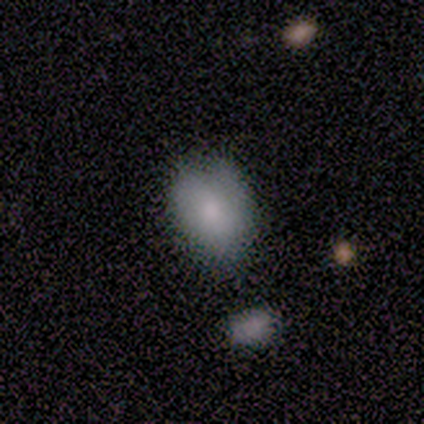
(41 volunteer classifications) smooth_or_featured: smooth (p=0.63) [alt: featured or disk p=0.29]
how_rounded: in between (p=0.92) [alt: round p=0.08]
merging: none (p=0.50) [alt: minor disturbance p=0.45]